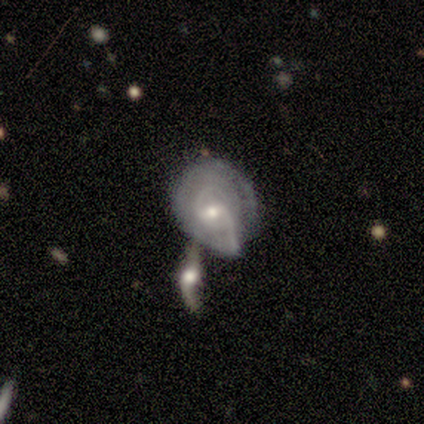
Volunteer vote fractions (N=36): This appears to be a featured or disk galaxy (86%) with a weak bar (60%), 2 (72%) medium (44%) spiral arms (83%) and a small central bulge (50%). Merging: merger (47%).